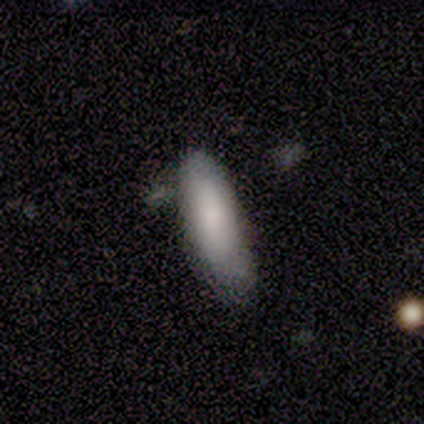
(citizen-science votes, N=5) This appears to be a smooth galaxy with no disk features (100%) that is cigar-shaped (60%). Merging: none (40%, tied with minor disturbance).